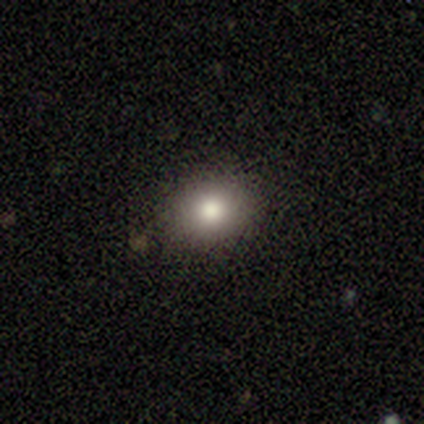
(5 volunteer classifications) Morphology: type=smooth (80%); roundness=round (75%); merging=none (100%).